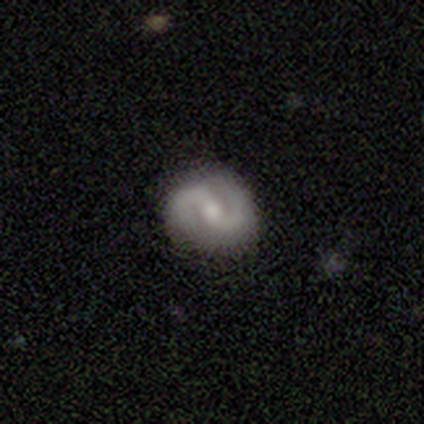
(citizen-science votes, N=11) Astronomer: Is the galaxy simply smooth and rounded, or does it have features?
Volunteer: featured or disk — 91%.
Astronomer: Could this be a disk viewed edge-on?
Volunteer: no — 100%.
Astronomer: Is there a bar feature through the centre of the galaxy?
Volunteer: weak — 60%.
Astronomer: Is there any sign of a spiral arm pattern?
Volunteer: yes — 100%.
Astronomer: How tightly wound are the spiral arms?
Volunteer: medium — 50% (runner-up: tight, 40%).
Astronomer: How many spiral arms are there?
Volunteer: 2 — 100%.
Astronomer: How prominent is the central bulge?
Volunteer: moderate — 60%.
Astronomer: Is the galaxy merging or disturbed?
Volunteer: none — 91%.